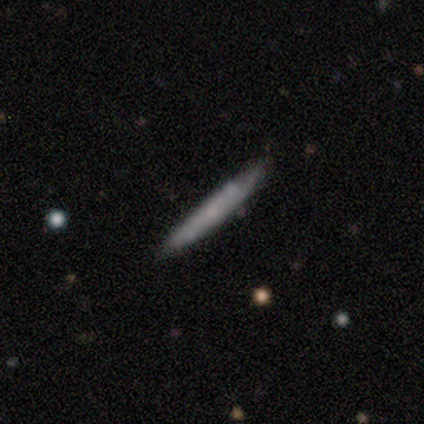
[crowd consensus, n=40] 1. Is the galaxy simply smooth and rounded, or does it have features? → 55% smooth, 45% featured or disk, 0% star or artifact.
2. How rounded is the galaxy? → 95% cigar-shaped, 5% in between, 0% round.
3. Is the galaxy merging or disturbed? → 88% none, 10% minor disturbance, 2% major disturbance, 0% merger.